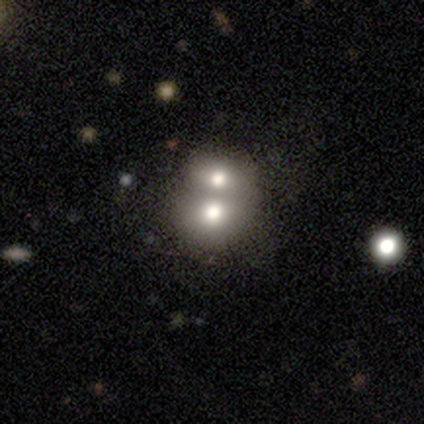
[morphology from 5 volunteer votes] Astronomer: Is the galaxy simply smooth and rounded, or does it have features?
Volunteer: smooth — 60% (runner-up: featured or disk, 40%).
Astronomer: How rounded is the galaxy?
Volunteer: in between — 67%.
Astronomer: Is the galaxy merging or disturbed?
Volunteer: merger — 60%.